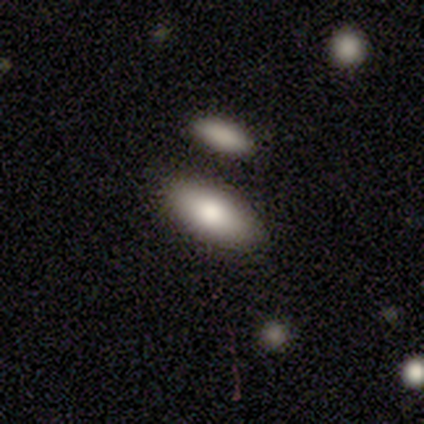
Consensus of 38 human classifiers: Smooth or featured: smooth — 95% (featured or disk — 5%)
How rounded: in between — 78% (cigar-shaped — 19%)
Merging: merger — 55%